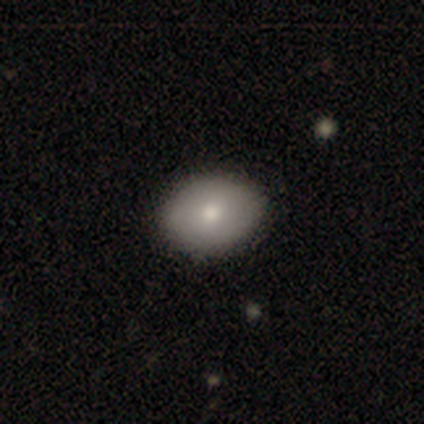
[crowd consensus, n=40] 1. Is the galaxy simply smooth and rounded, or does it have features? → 85% smooth, 12% featured or disk, 2% star or artifact.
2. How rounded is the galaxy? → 68% in between, 32% round, 0% cigar-shaped.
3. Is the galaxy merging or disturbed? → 64% none, 3% minor disturbance, 3% merger, 0% major disturbance.